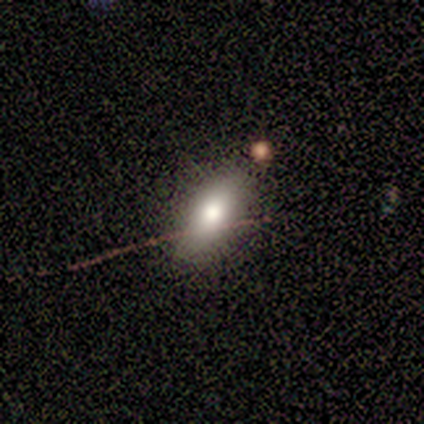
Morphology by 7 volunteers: This is likely a smooth galaxy (71%). How rounded: clearly in between (80%). Merging: clearly none (86%).